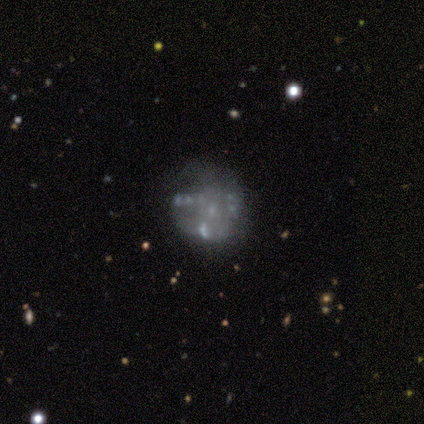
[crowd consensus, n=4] Q: Smooth or featured?
A: featured or disk (100%)
Q: Edge-on disk?
A: no (100%)
Q: Bar?
A: no (75%); runner-up: weak (25%)
Q: Spiral arms?
A: no (100%)
Q: Bulge size?
A: small (75%); runner-up: none (25%)
Q: Merging?
A: none (75%); runner-up: minor disturbance (25%)